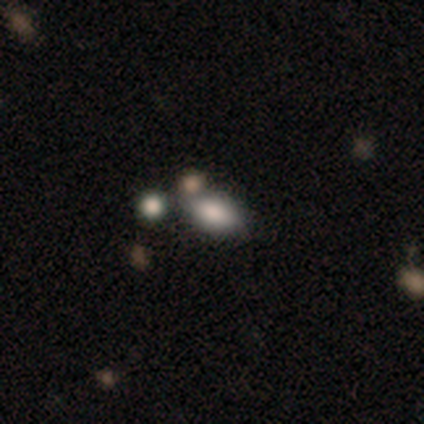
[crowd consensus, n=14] Q: Smooth or featured?
A: smooth (79%); runner-up: star or artifact (14%)
Q: How rounded?
A: in between (91%); runner-up: round (9%)
Q: Merging?
A: none (50%); runner-up: minor disturbance (25%)